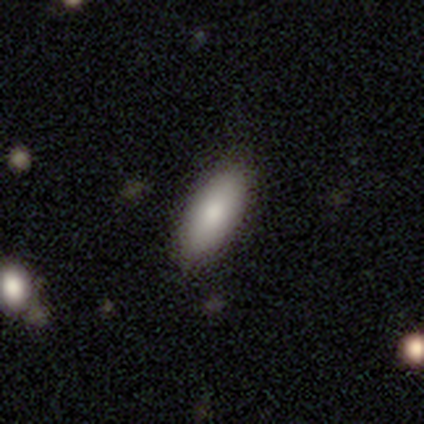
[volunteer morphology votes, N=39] type=smooth (85%); roundness=in between (73%); merging=none (92%).